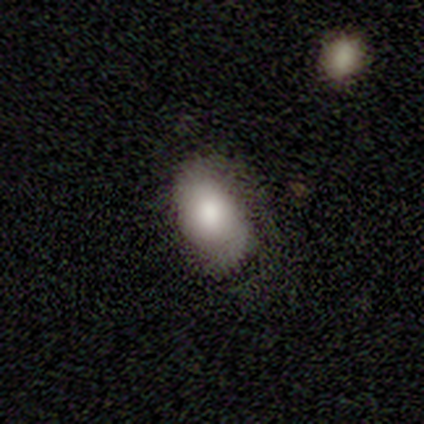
Morphology: type=smooth (40%, tied with featured or disk); roundness=in between (100%); merging=none (50%).